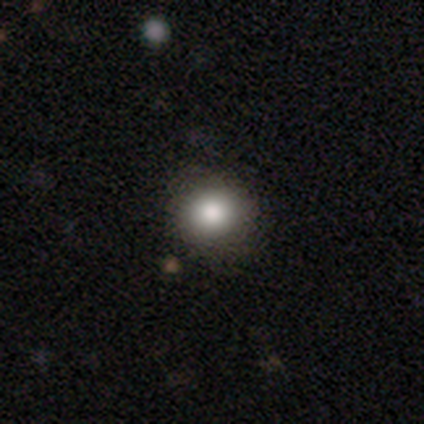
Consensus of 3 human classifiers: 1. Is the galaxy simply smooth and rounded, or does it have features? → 67% smooth, 33% featured or disk, 0% star or artifact.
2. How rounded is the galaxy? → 50% round (tied), 50% in between (tied), 0% cigar-shaped.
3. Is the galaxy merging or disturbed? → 100% none, 0% minor disturbance, 0% major disturbance, 0% merger.